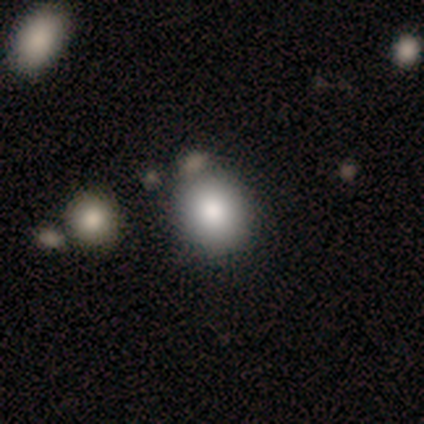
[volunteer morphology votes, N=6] Smooth or featured? 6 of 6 (100%) said smooth. How rounded? 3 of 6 (50%, tied with in between) said round. Merging? 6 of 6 (100%) said none.